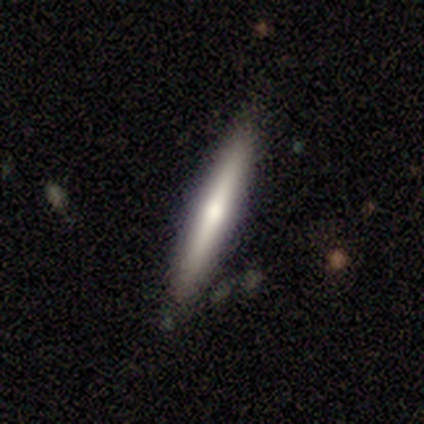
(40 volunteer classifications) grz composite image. It shows a smooth galaxy with no disk features (60%) that is cigar-shaped (92%). Merging: none (98%).